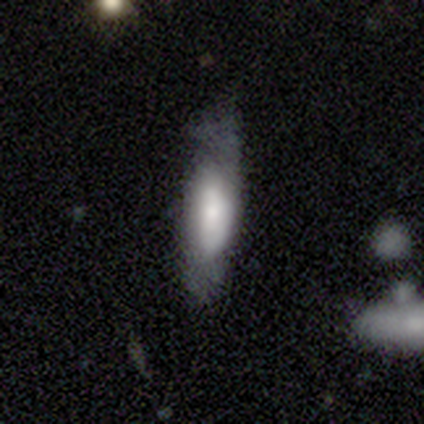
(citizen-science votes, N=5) Smooth or featured?
  - smooth: 80% *
  - featured or disk: 20%
  - star or artifact: 0%
How rounded?
  - in between: 50% * (tied)
  - cigar-shaped: 50% * (tied)
  - round: 0%
Merging?
  - none: 60% *
  - minor disturbance: 20%
  - major disturbance: 20%
  - merger: 0%